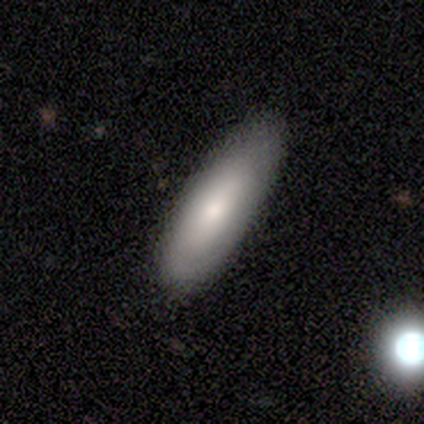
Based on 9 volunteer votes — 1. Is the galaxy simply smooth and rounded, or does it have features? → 67% smooth, 33% featured or disk, 0% star or artifact.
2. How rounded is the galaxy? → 67% in between, 33% cigar-shaped, 0% round.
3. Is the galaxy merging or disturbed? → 89% none, 11% minor disturbance, 0% major disturbance, 0% merger.